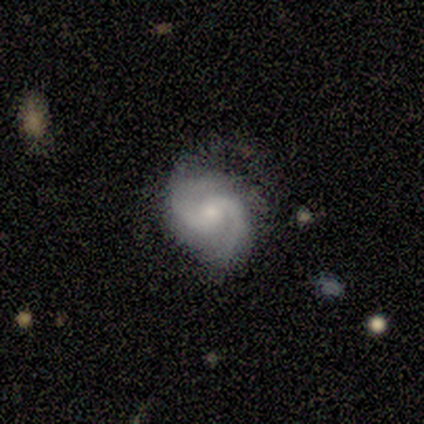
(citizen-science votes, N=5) A featured or disk galaxy (80%) with no bar (50%), 2 (75%) tight (50%) spiral arms (100%) and a small central bulge (75%). Merging: none (60%).